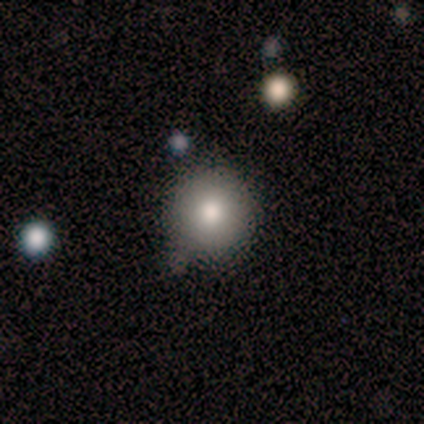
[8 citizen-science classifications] smooth-or-featured: smooth: 100% | featured or disk: 0% | star or artifact: 0%
  how-rounded: round: 100% | in between: 0% | cigar-shaped: 0%
  merging: none: 100% | minor disturbance: 0% | major disturbance: 0% | merger: 0%